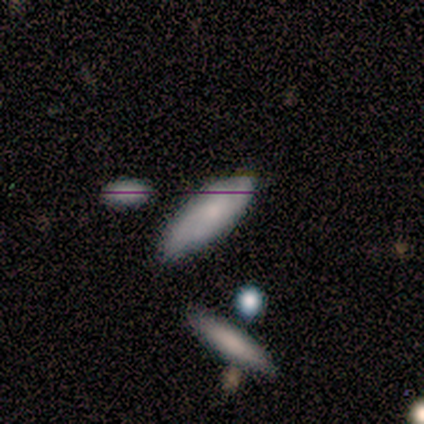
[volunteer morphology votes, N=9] Smooth or featured? 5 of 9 (56%) said smooth. How rounded? 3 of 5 (60%) said cigar-shaped. Merging? 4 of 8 (50%, tied with minor disturbance) said none.